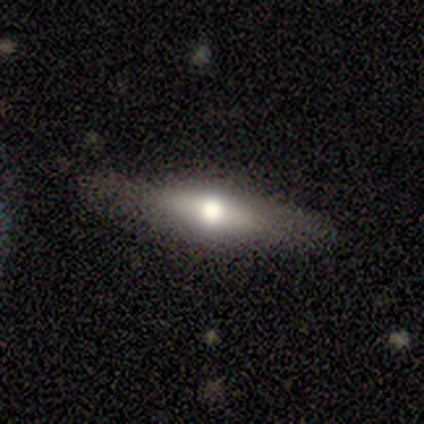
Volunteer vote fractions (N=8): Smooth or featured: featured or disk — 75% (smooth — 25%)
Edge-on disk: yes — 100%
Edge-on bulge: rounded — 100%
Merging: none — 100%